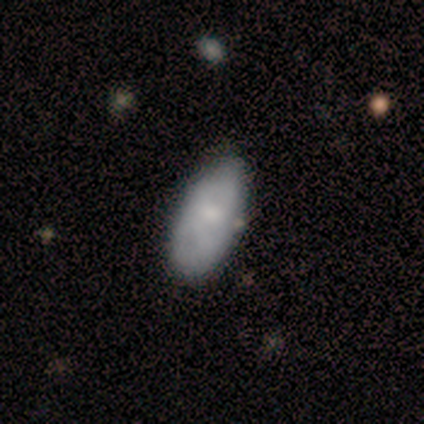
smooth-or-featured: smooth: 100% | featured or disk: 0% | star or artifact: 0%
  how-rounded: in between: 83% | cigar-shaped: 17% | round: 0%
  merging: none: 67% | minor disturbance: 17% | merger: 17% | major disturbance: 0%